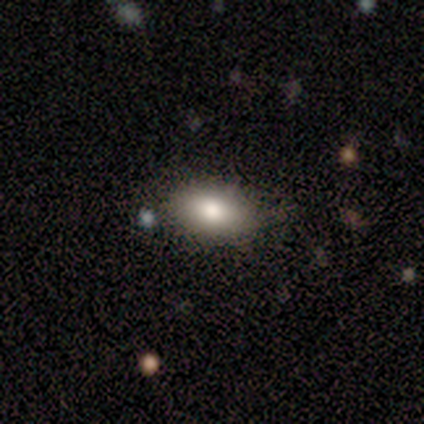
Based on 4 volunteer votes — This appears to be a smooth galaxy with no disk features (100%) that is in between round and cigar-shaped (100%). Merging: none (100%).